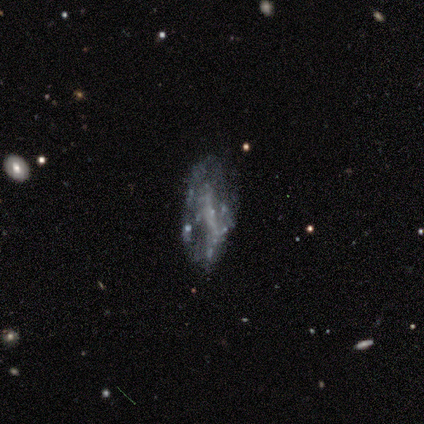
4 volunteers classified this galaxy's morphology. This appears to be a featured or disk galaxy (100%) with a weak bar (67%), no spiral arms (100%) and no central bulge (67%). Merging: none (75%).